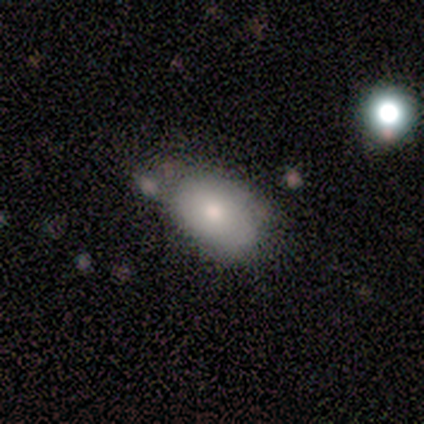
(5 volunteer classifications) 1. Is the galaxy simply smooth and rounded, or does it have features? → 80% smooth, 20% featured or disk, 0% star or artifact.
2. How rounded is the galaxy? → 100% in between, 0% round, 0% cigar-shaped.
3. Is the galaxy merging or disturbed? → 60% none, 40% minor disturbance, 0% major disturbance, 0% merger.